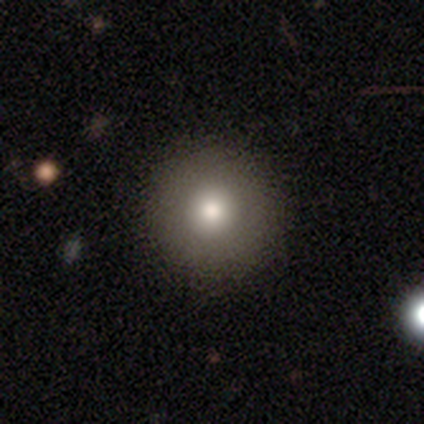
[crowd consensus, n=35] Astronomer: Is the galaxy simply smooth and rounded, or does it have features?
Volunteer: smooth — 77%.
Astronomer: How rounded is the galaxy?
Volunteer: round — 96%.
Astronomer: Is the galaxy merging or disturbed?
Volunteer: none — 94%.